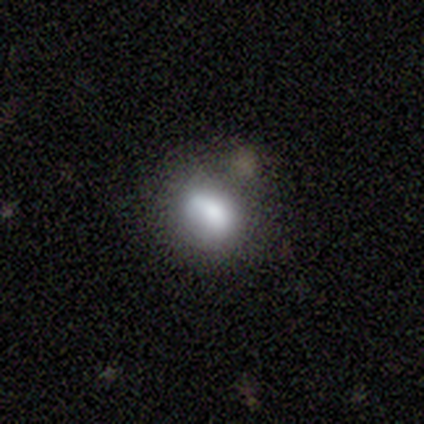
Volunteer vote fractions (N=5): Q: Smooth or featured?
A: smooth (80%); runner-up: star or artifact (20%)
Q: How rounded?
A: in between (75%); runner-up: round (25%)
Q: Merging?
A: none (75%); runner-up: minor disturbance (25%)